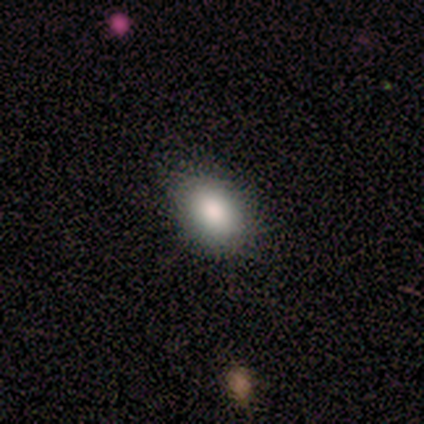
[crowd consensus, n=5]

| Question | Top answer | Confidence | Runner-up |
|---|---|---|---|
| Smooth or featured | smooth | 80% | featured or disk (20%) |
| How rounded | in between | 75% | round (25%) |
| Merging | none | 80% | minor disturbance (20%) |